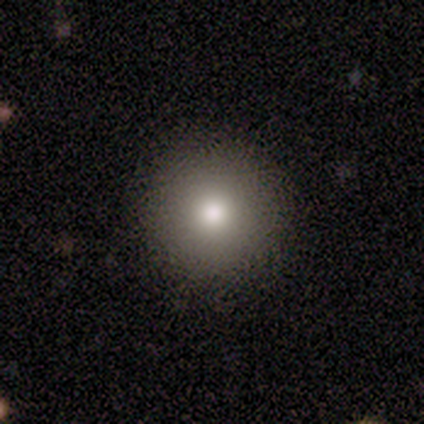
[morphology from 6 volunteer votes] A smooth galaxy with no disk features (83%) that is round (100%). Merging: none (100%).